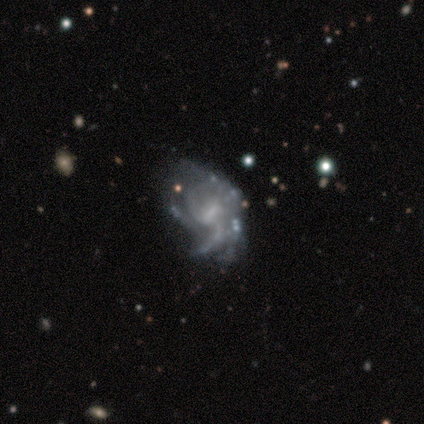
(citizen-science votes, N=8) A featured or disk galaxy (88%) with a weak bar (71%), tight (43%, tied with medium) spiral arms (100%) and no central bulge (43%).

Vote fractions:
- Smooth or featured? featured or disk: 88% / star or artifact: 12% / smooth: 0%
- Edge-on disk? no: 100% / yes: 0%
- Bar? weak: 71% / strong: 14% / no: 14%
- Spiral arms? yes: 100% / no: 0%
- Spiral winding? tight: 43% (tied) / medium: 43% (tied) / loose: 14%
- Spiral arm count? can't tell: 57% / 3: 29% / 4: 14% / 1: 0% / 2: 0% / more than 4: 0%
- Bulge size? none: 43% / moderate: 29% / small: 29% / dominant: 0% / large: 0%
- Merging? minor disturbance: 57% / none: 43% / major disturbance: 0% / merger: 0%